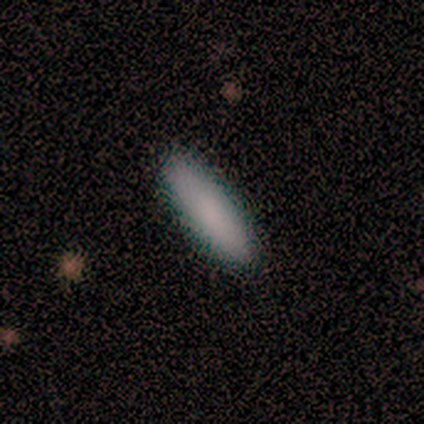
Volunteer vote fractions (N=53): Smooth or featured? 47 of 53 (89%) said smooth. How rounded? 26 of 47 (55%) said cigar-shaped. Merging? 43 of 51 (84%) said none.